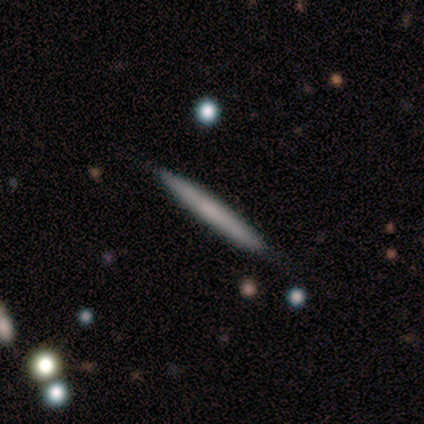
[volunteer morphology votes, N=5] Smooth or featured?
  - featured or disk: 60% *
  - smooth: 40%
  - star or artifact: 0%
Edge-on disk?
  - yes: 100% *
  - no: 0%
Edge-on bulge?
  - none: 100% *
  - boxy: 0%
  - rounded: 0%
Merging?
  - none: 80% *
  - minor disturbance: 20%
  - major disturbance: 0%
  - merger: 0%